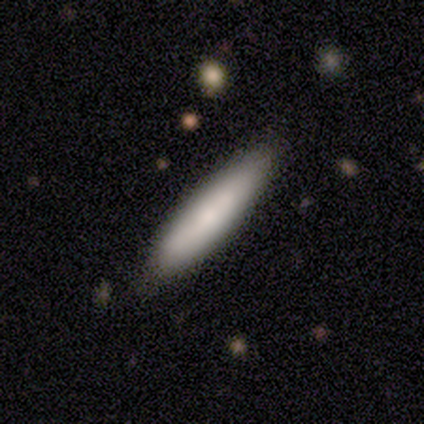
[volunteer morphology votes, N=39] Volunteers were most divided on "merging": none: 73%, minor disturbance: 22%, major disturbance: 3%, merger: 3%. More confident: how rounded — cigar-shaped (97%); smooth or featured — smooth (79%).